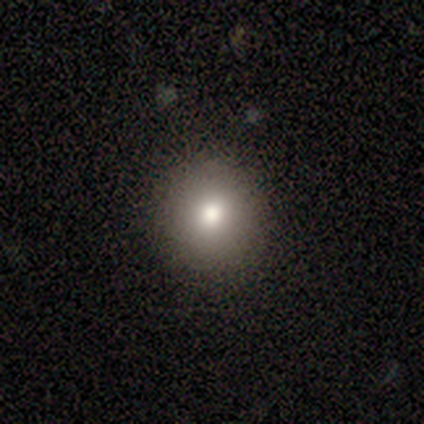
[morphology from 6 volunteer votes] type=smooth (100%); roundness=round (100%); merging=none (100%).